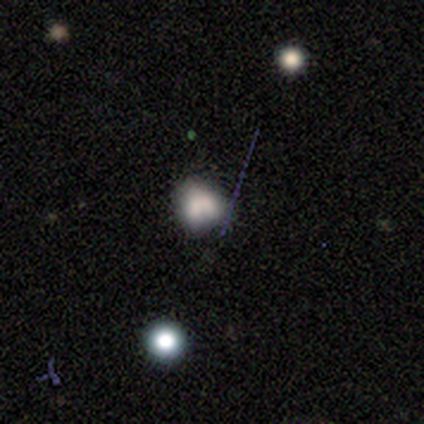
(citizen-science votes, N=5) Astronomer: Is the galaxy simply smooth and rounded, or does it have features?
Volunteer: smooth — 60% (runner-up: featured or disk, 40%).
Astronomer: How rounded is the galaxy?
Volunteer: in between — 100%.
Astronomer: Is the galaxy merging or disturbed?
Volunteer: none — 60%.